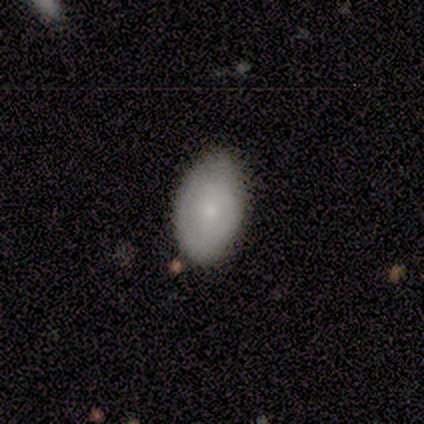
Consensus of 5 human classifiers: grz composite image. It shows a featured or disk galaxy (60%) with no bar (67%), no spiral arms (67%) and a small central bulge (67%). Merging: none (80%).